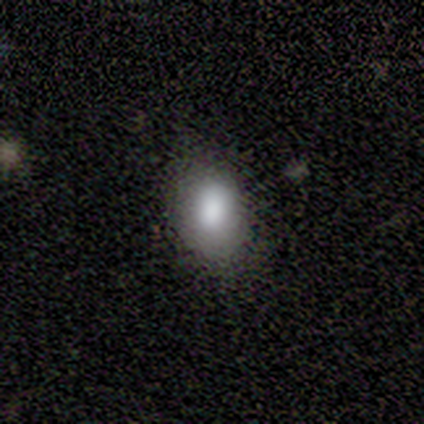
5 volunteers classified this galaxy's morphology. smooth_or_featured: smooth (p=0.80) [alt: featured or disk p=0.20]
how_rounded: in between (p=1.00)
merging: none (p=1.00)